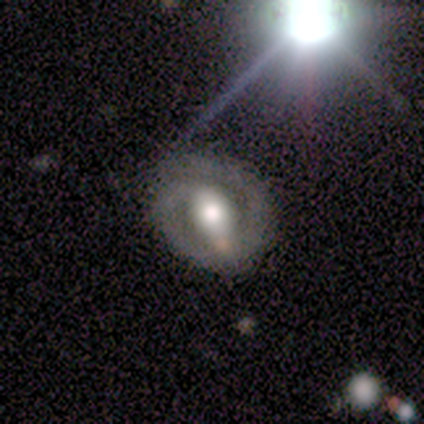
smooth_or_featured: featured or disk (p=1.00)
disk_edge_on: no (p=1.00)
bar: strong (p=0.67) [alt: weak p=0.33]
has_spiral_arms: yes (p=0.83) [alt: no p=0.17]
spiral_winding: tight (p=0.60) [alt: medium p=0.40]
spiral_arm_count: 2 (p=0.60) [alt: 1 p=0.40]
bulge_size: large (p=0.67) [alt: moderate p=0.33]
merging: none (p=0.83) [alt: minor disturbance p=0.17]